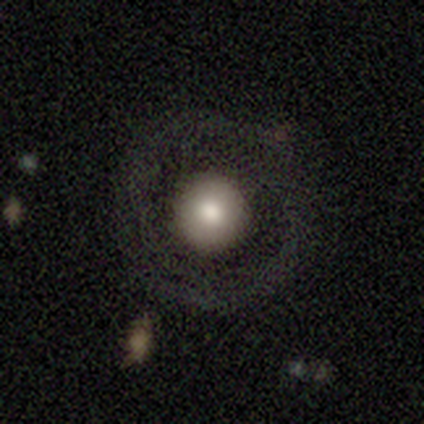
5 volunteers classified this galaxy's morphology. smooth 40% (tied), featured or disk 40% (tied), star or artifact 20%. Down the decision tree: how rounded — round (100%); merging — none (75%).